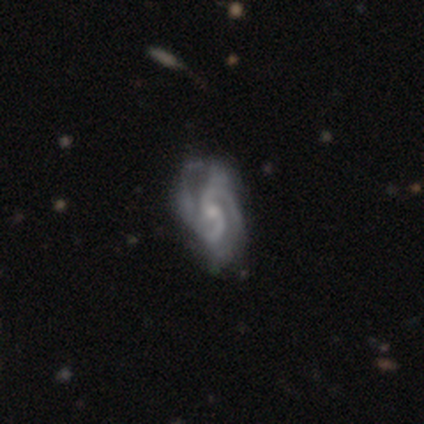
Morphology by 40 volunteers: This appears to be a featured or disk galaxy (95%) with no bar (59%), 2 (58%) medium (56%) spiral arms (97%) and a moderate central bulge (46%). Merging: none (46%).